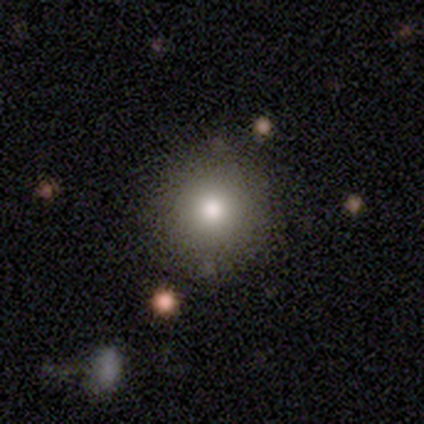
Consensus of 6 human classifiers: Overall: smooth (67%; star or artifact 33%). How rounded: round (100%). Merging: none (75%).